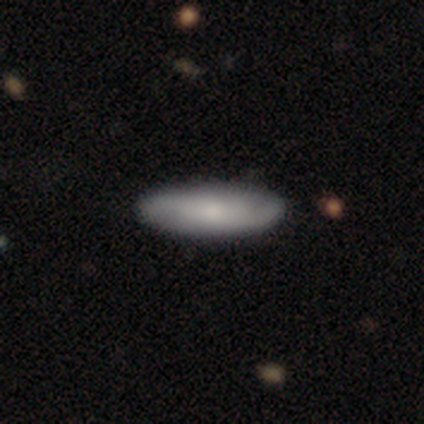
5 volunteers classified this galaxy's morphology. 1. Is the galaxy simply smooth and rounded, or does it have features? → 60% featured or disk, 40% smooth, 0% star or artifact.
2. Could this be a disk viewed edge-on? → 100% no, 0% yes.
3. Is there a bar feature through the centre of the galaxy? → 67% no, 33% weak, 0% strong.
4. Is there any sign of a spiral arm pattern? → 67% yes, 33% no.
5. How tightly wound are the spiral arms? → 50% medium (tied), 50% loose (tied), 0% tight.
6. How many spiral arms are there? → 100% 2, 0% 1, 0% 3, 0% 4, 0% more than 4, 0% can't tell.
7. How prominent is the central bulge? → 67% small, 33% moderate, 0% dominant, 0% large, 0% none.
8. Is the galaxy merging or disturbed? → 80% none, 20% minor disturbance, 0% major disturbance, 0% merger.